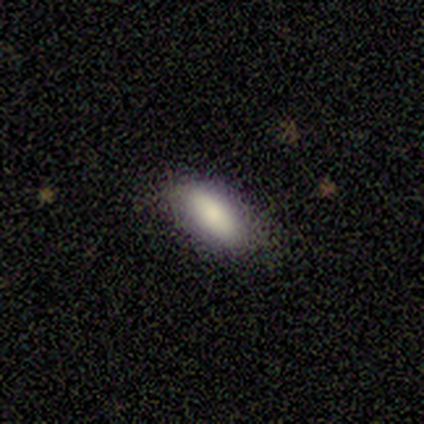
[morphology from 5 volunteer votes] Volunteers were most divided on "how rounded": in between: 80%, cigar-shaped: 20%, round: 0%. More confident: smooth or featured — smooth (100%); merging — none (80%).